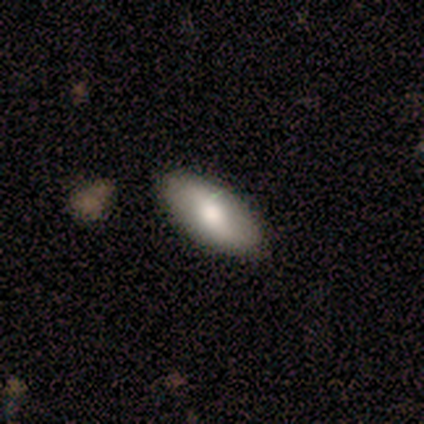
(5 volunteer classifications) Smooth or featured?
  - smooth: 80% *
  - featured or disk: 20%
  - star or artifact: 0%
How rounded?
  - in between: 100% *
  - round: 0%
  - cigar-shaped: 0%
Merging?
  - none: 80% *
  - merger: 20%
  - minor disturbance: 0%
  - major disturbance: 0%